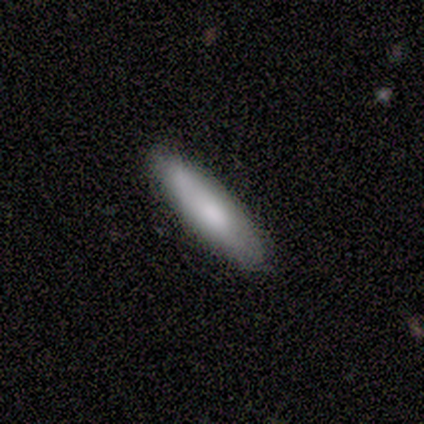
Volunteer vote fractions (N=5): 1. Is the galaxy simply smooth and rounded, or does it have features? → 60% smooth, 40% featured or disk, 0% star or artifact.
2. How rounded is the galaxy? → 67% cigar-shaped, 33% in between, 0% round.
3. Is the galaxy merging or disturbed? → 80% none, 20% merger, 0% minor disturbance, 0% major disturbance.